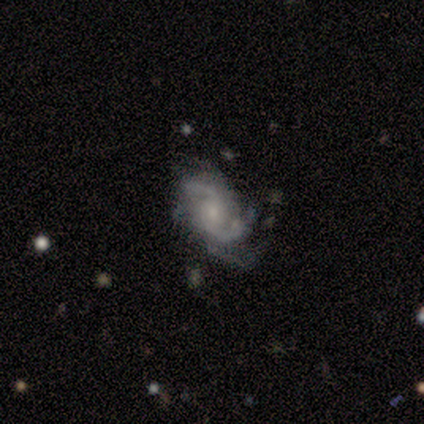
This appears to be a featured or disk galaxy (97%) with no bar (66%), 2 (69%) medium (54%) spiral arms (100%) and a small central bulge (63%). Merging: none (44%).